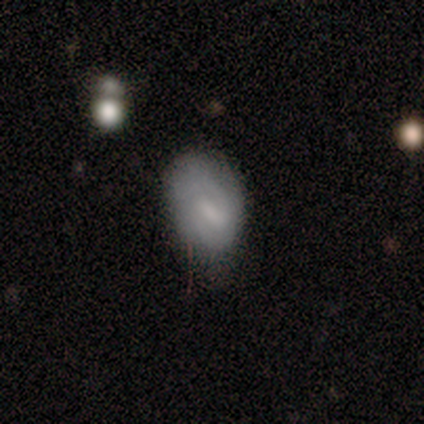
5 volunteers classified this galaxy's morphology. Smooth or featured: smooth — 100%
How rounded: in between — 100%
Merging: minor disturbance — 80% (none — 20%)